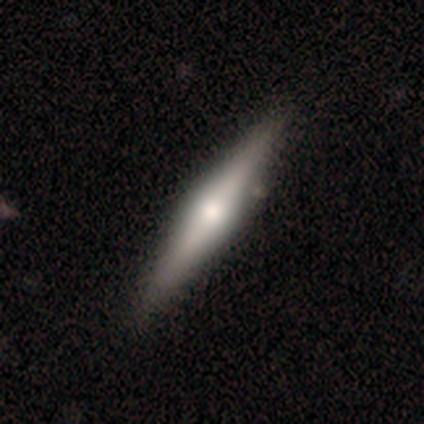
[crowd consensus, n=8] A featured or disk galaxy (75%) viewed edge-on (100%) with a rounded central bulge (83%).

Vote fractions:
- Smooth or featured? featured or disk: 75% / smooth: 25% / star or artifact: 0%
- Edge-on disk? yes: 100% / no: 0%
- Edge-on bulge? rounded: 83% / boxy: 17% / none: 0%
- Merging? none: 100% / minor disturbance: 0% / major disturbance: 0% / merger: 0%